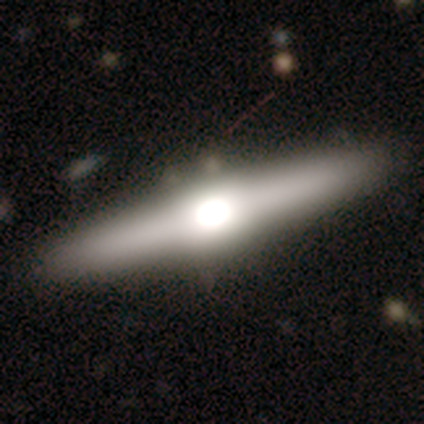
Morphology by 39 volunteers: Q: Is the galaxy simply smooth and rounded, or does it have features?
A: featured or disk — 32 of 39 (82%).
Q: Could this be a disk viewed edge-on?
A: yes — 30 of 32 (94%).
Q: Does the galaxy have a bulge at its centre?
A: rounded — 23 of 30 (77%).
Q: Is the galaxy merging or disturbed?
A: none — 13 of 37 (35%).